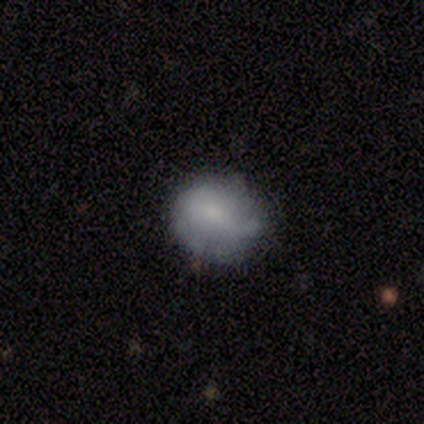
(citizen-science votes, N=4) smooth_or_featured: smooth (p=0.50) [tied with: featured or disk p=0.50]
how_rounded: round (p=0.50) [tied with: in between p=0.50]
merging: none (p=0.50) [tied with: minor disturbance p=0.50]